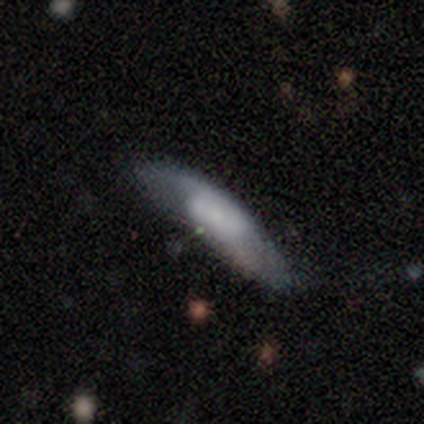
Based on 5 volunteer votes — Smooth or featured: smooth — 60% (featured or disk — 40%)
How rounded: cigar-shaped — 100%
Merging: minor disturbance — 60% (none — 40%)